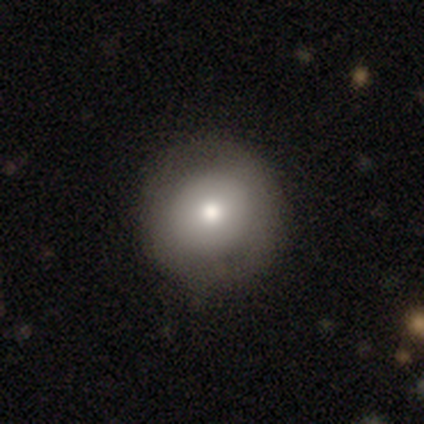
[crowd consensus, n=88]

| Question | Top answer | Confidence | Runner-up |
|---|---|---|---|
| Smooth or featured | smooth | 72% | featured or disk (18%) |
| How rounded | round | 97% | in between (3%) |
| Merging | none | 85% | minor disturbance (9%) |